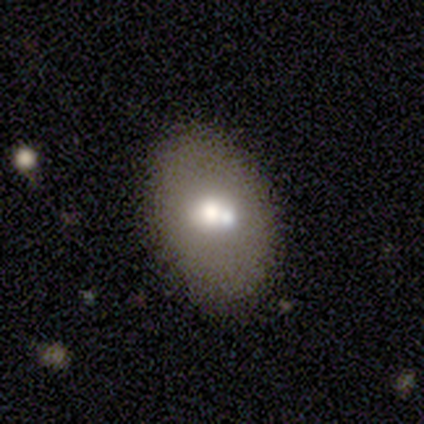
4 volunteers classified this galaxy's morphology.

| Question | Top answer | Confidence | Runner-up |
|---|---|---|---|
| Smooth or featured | featured or disk | 75% | smooth (25%) |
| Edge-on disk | no | 100% | — |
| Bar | no | 100% | — |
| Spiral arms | no | 100% | — |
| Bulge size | moderate | 67% | large (33%) |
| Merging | none | 100% | — |